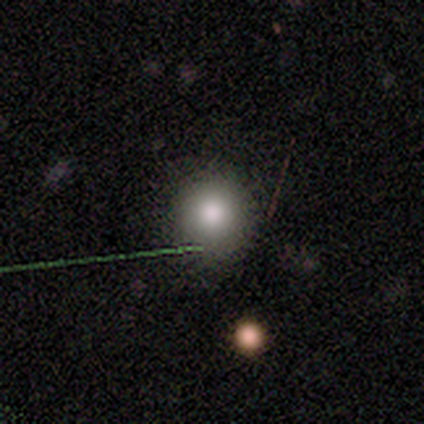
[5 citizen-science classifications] Smooth or featured? 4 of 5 (80%) said smooth. How rounded? 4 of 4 (100%) said round. Merging? 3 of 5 (60%) said none.